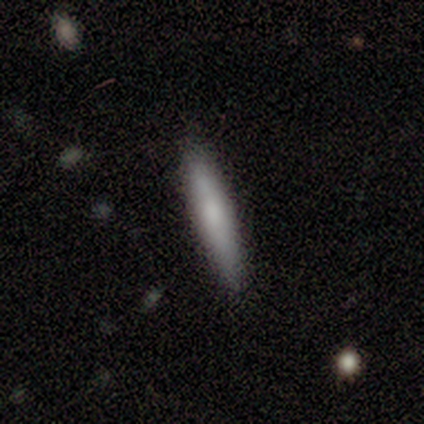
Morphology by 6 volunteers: Overall: smooth (50%, tied with featured or disk). How rounded: cigar-shaped (100%). Merging: none (83%).